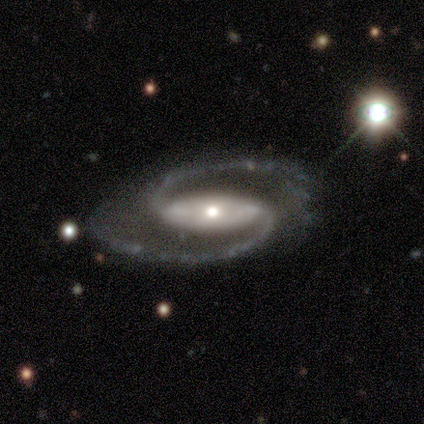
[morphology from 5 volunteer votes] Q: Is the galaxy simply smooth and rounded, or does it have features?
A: featured or disk — 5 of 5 (100%).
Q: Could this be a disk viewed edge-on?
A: no — 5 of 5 (100%).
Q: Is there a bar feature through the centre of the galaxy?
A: strong — 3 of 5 (60%).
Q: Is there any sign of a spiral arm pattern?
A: yes — 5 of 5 (100%).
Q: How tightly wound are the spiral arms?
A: medium — 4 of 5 (80%).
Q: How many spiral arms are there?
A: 2 — 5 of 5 (100%).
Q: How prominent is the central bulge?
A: moderate — 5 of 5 (100%).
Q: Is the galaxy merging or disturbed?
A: none — 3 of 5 (60%).